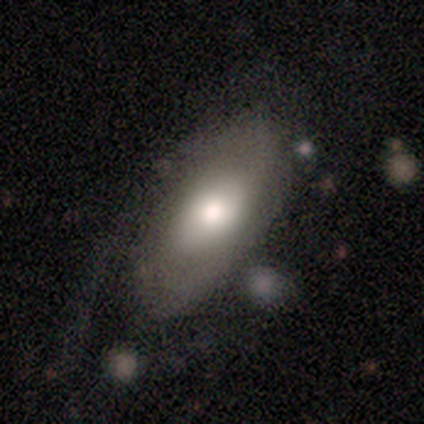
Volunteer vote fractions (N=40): smooth 57%, featured or disk 42%, star or artifact 0%. Down the decision tree: how rounded — in between (100%); merging — none (38%).